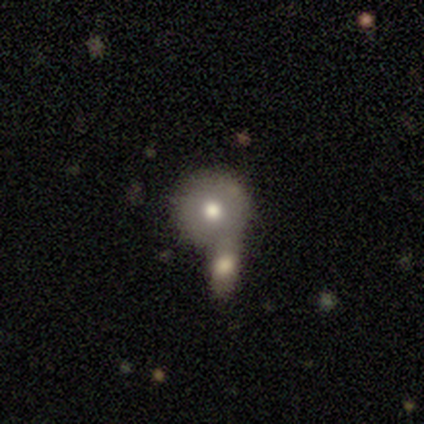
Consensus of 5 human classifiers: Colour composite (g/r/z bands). It shows a smooth galaxy with no disk features (80%) that is round (100%). Merging: merger (60%).